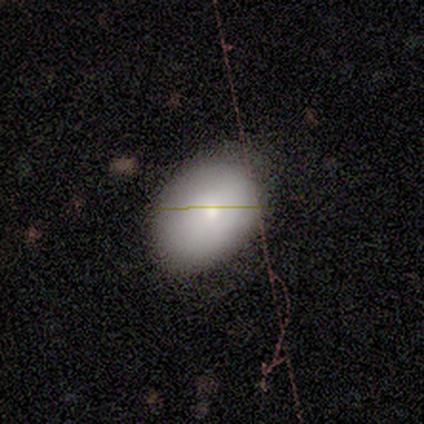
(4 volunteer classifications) Volunteers were most divided on "how rounded" (2-way tie): round: 50%, in between: 50%, cigar-shaped: 0%. More confident: smooth or featured — smooth (100%); merging — none (50%).